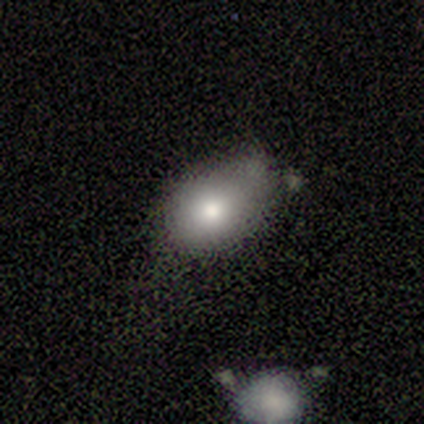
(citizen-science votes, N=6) Q: Smooth or featured?
A: smooth (100%)
Q: How rounded?
A: in between (83%); runner-up: round (17%)
Q: Merging?
A: none (83%); runner-up: minor disturbance (17%)